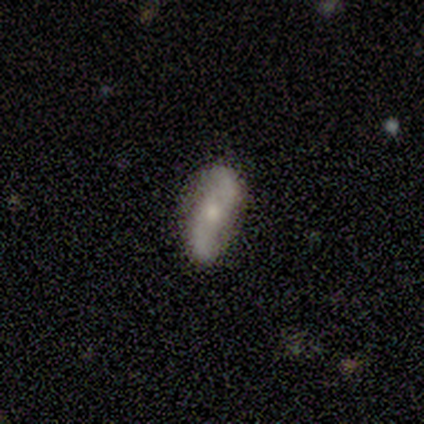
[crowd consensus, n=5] This is likely a featured or disk galaxy (60%). It is clearly not viewed edge-on (100%). Bar: clearly no (100%). Spiral arm pattern: clearly yes (100%). Spiral arm count: clearly 2 (100%). Spiral winding: clearly loose (100%). Central bulge: clearly small (100%). Merging: likely none (75%).